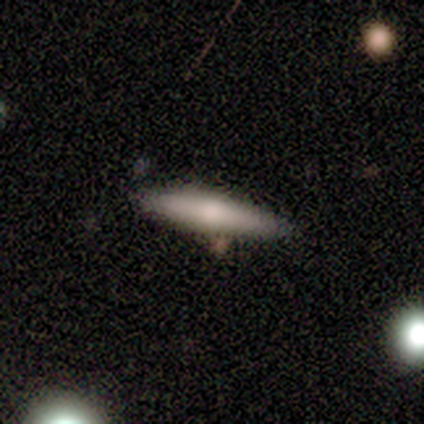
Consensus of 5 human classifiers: Volunteers were most divided on "smooth or featured": smooth: 60%, featured or disk: 40%, star or artifact: 0%. More confident: how rounded — cigar-shaped (100%); merging — none (80%).